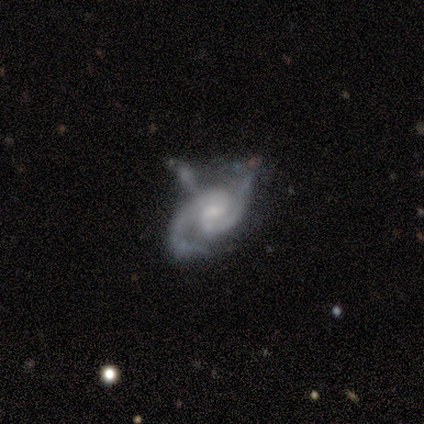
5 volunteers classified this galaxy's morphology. Q: Smooth or featured?
A: featured or disk (100%)
Q: Edge-on disk?
A: no (100%)
Q: Bar?
A: weak (60%); runner-up: no (40%)
Q: Spiral arms?
A: yes (100%)
Q: Spiral winding?
A: tight (40%); tied with: loose (40%)
Q: Spiral arm count?
A: 2 (100%)
Q: Bulge size?
A: small (60%); runner-up: moderate (40%)
Q: Merging?
A: none (60%); runner-up: minor disturbance (20%)